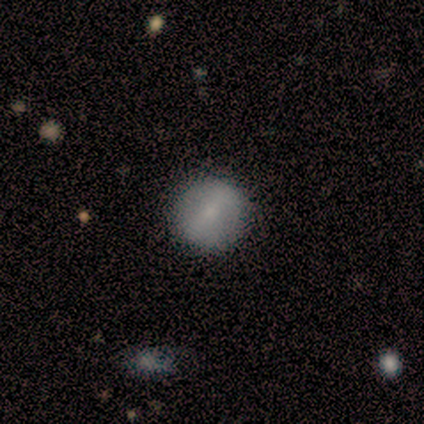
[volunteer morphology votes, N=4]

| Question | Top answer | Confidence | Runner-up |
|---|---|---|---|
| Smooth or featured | smooth | 50% | tied: featured or disk (50%) |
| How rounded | round | 50% | tied: in between (50%) |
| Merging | none | 75% | minor disturbance (25%) |